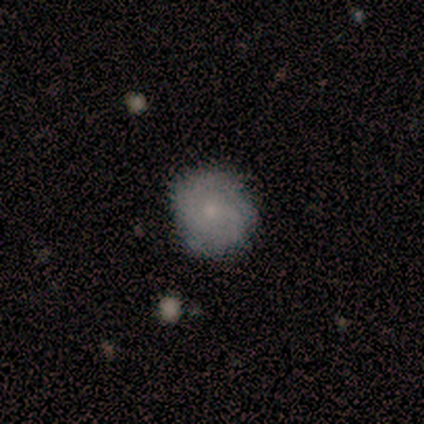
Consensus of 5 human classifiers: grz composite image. It shows a smooth galaxy with no disk features (60%) that is round (100%). Merging: none (100%).